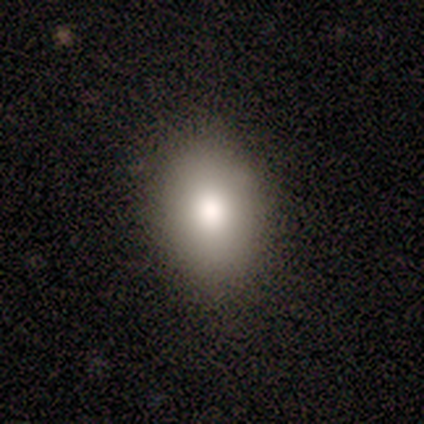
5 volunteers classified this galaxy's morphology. Q: Smooth or featured?
A: smooth (60%); runner-up: featured or disk (20%)
Q: How rounded?
A: in between (100%)
Q: Merging?
A: none (100%)